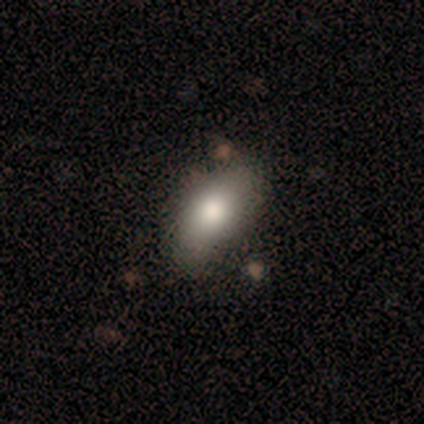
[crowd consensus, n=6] Morphology: type=smooth (67%); roundness=in between (50%); merging=none (50%).